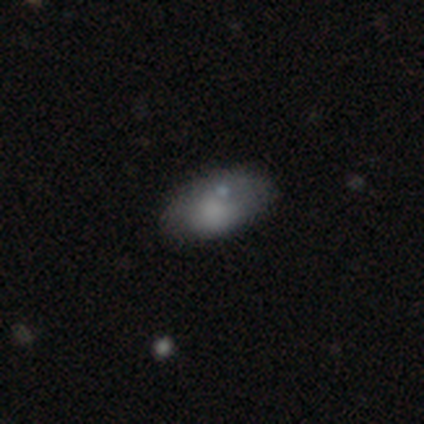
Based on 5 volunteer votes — A smooth galaxy with no disk features (80%) that is in between round and cigar-shaped (100%).

Vote fractions:
- Smooth or featured? smooth: 80% / star or artifact: 20% / featured or disk: 0%
- How rounded? in between: 100% / round: 0% / cigar-shaped: 0%
- Merging? none: 50% (tied) / minor disturbance: 50% (tied) / major disturbance: 0% / merger: 0%